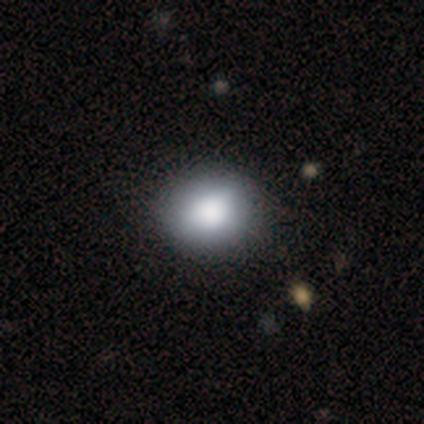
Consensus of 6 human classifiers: Overall: smooth (100%). How rounded: round (67%; in between 33%). Merging: none (67%; minor disturbance 33%).